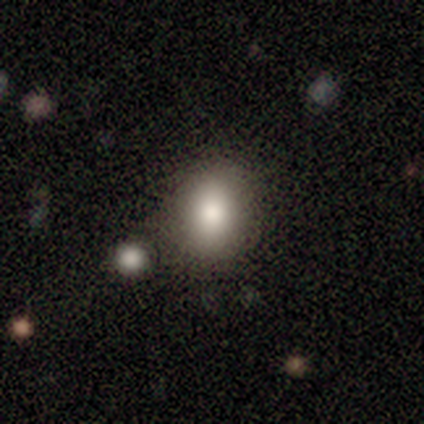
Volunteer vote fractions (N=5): Smooth or featured: smooth — 100%
How rounded: in between — 80% (round — 20%)
Merging: none — 60% (minor disturbance — 20%)